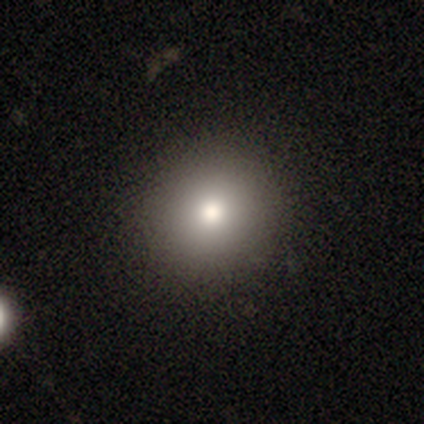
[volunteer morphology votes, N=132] Q: Smooth or featured?
A: smooth (83%); runner-up: featured or disk (10%)
Q: How rounded?
A: round (95%); runner-up: in between (5%)
Q: Merging?
A: none (92%); runner-up: minor disturbance (7%)